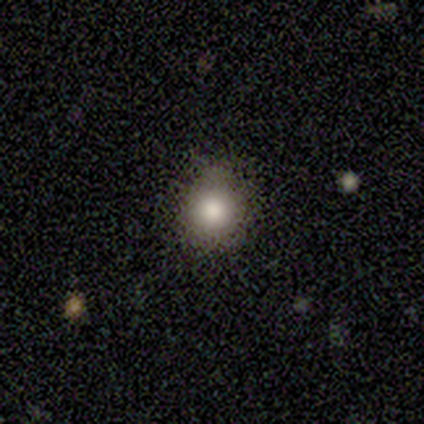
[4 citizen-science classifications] This is likely a smooth galaxy (75%). How rounded: clearly round (100%). Merging: likely none (75%).